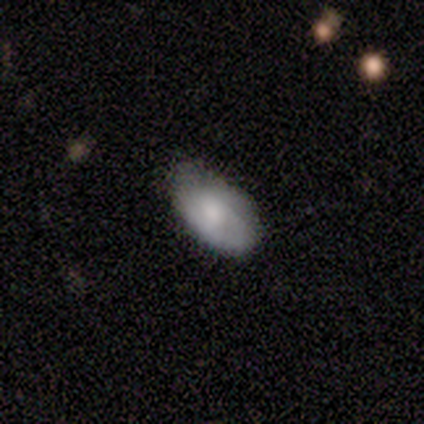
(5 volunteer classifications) A smooth galaxy with no disk features (60%) that is in between round and cigar-shaped (100%). Merging: none (75%).